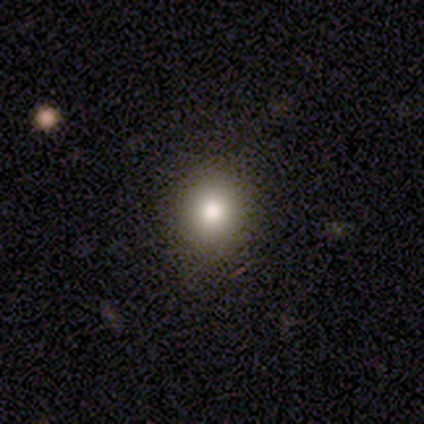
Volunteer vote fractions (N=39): smooth-or-featured: smooth: 74% | featured or disk: 13% | star or artifact: 13%
  how-rounded: round: 76% | in between: 24% | cigar-shaped: 0%
  merging: none: 79% | minor disturbance: 15% | major disturbance: 6% | merger: 0%